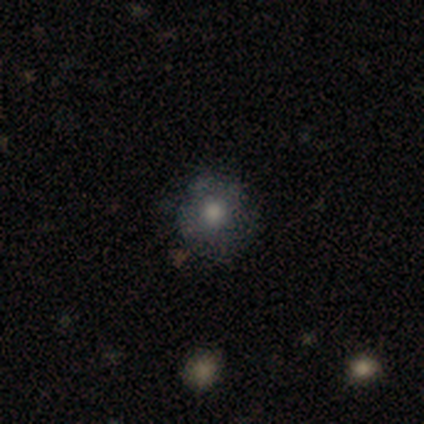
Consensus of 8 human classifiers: Morphology: type=smooth (62%); roundness=round (100%); merging=minor disturbance (57%).